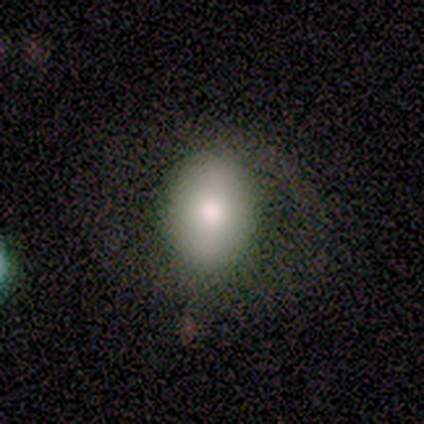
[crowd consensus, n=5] smooth 80%, star or artifact 20%, featured or disk 0%. Down the decision tree: how rounded — round (75%); merging — none (100%).